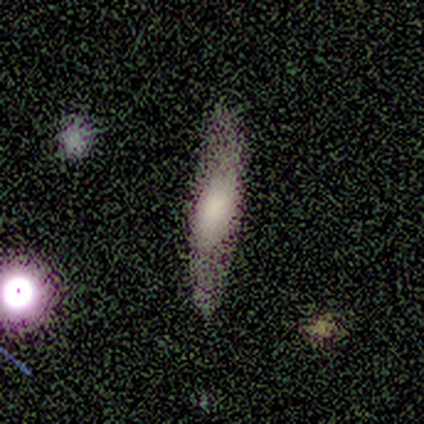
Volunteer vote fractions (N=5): Smooth or featured: smooth — 60% (featured or disk — 40%)
How rounded: cigar-shaped — 67% (in between — 33%)
Merging: none — 100%